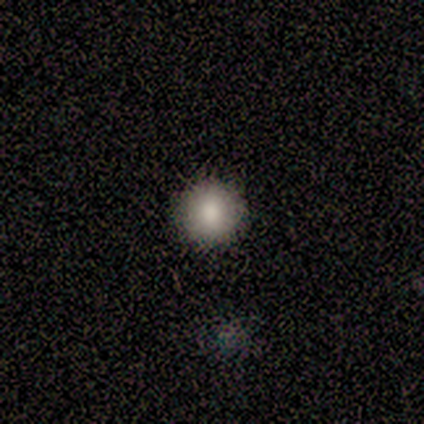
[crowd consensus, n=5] Smooth or featured? 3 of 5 (60%) said smooth. How rounded? 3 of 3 (100%) said round. Merging? 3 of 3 (100%) said none.